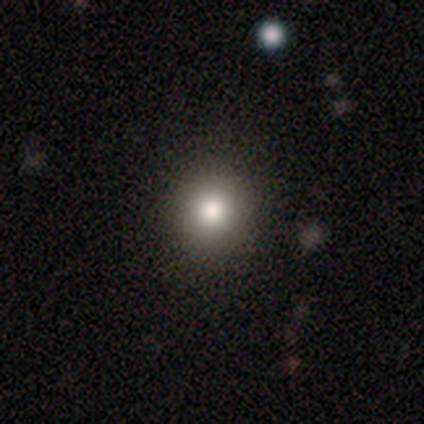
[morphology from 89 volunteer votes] Smooth or featured?
  - smooth: 76% *
  - star or artifact: 15%
  - featured or disk: 9%
How rounded?
  - round: 85% *
  - in between: 15%
  - cigar-shaped: 0%
Merging?
  - none: 91% *
  - minor disturbance: 7%
  - major disturbance: 3%
  - merger: 0%